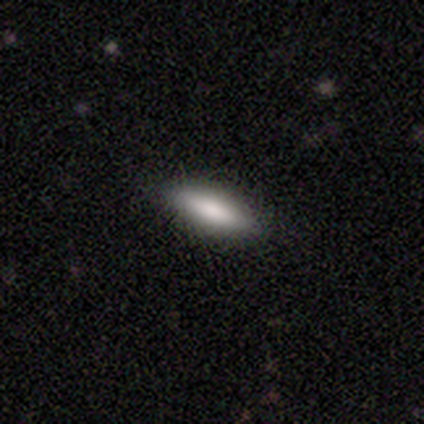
Smooth or featured?
  - smooth: 60% *
  - featured or disk: 40%
  - star or artifact: 0%
How rounded?
  - in between: 100% *
  - round: 0%
  - cigar-shaped: 0%
Merging?
  - none: 80% *
  - minor disturbance: 20%
  - major disturbance: 0%
  - merger: 0%